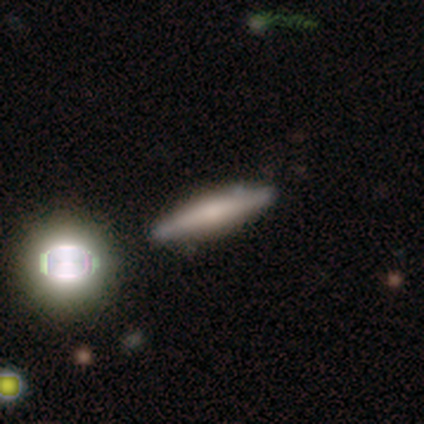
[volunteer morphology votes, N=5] Smooth or featured: smooth — 60% (featured or disk — 20%)
How rounded: cigar-shaped — 100%
Merging: none — 100%